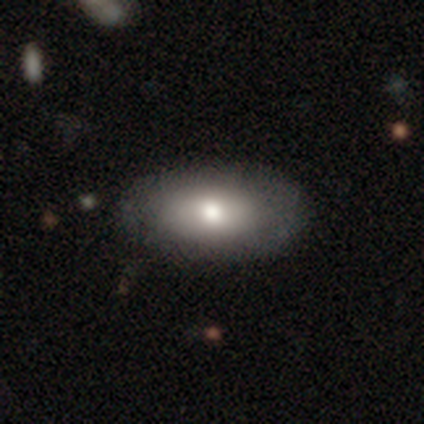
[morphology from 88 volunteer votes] Overall: smooth (76%). How rounded: in between (93%). Merging: none (90%).